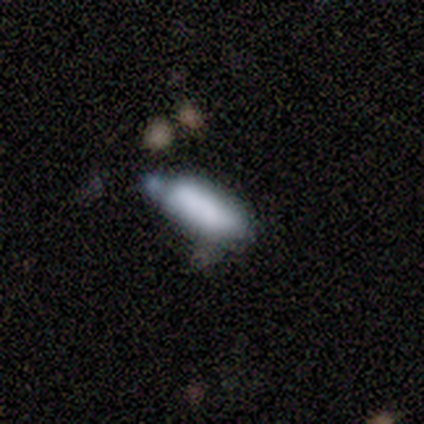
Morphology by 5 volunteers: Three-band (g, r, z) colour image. It shows a smooth galaxy with no disk features (40%, tied with featured or disk) that is in between round and cigar-shaped (50%, tied with cigar-shaped). Merging: major disturbance (50%).